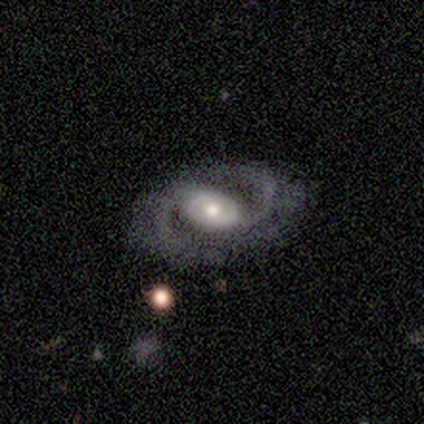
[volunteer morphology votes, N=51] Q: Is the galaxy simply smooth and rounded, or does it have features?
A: featured or disk — 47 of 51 (92%).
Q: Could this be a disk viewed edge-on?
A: no — 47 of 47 (100%).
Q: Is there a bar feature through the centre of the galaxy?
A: no — 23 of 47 (49%).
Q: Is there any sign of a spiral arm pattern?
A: yes — 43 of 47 (91%).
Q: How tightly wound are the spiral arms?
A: medium — 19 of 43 (44%).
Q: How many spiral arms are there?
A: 2 — 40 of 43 (93%).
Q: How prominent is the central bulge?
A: moderate — 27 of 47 (57%).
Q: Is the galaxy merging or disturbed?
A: none — 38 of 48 (79%).